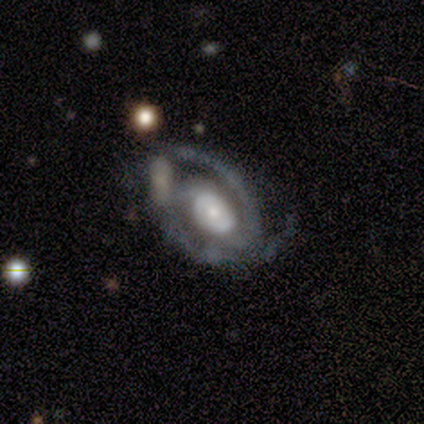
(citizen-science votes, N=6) Volunteers were most divided on "spiral winding" (2-way tie): medium: 50%, loose: 50%, tight: 0%; "spiral arm count" (2-way tie): 2: 50%, can't tell: 50%, 1: 0%, 3: 0%, 4: 0%, more than 4: 0%. More confident: edge-on disk — no (100%); spiral arms — yes (100%); bar — no (75%); smooth or featured — featured or disk (67%); merging — major disturbance (50%); bulge size — moderate (50%).